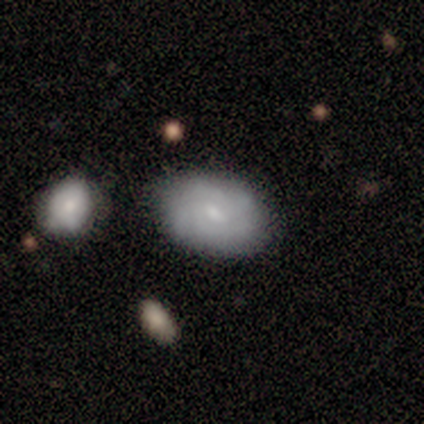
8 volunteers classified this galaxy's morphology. Overall: smooth (50%, tied with featured or disk). How rounded: in between (75%). Merging: none (88%).